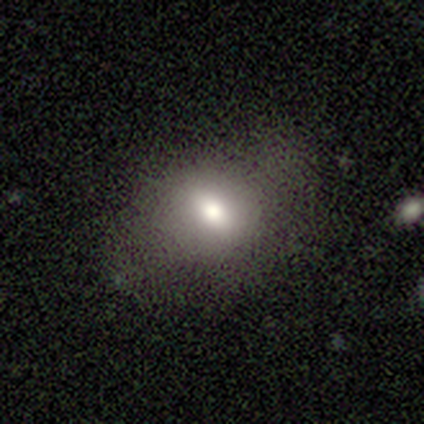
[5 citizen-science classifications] Q: Smooth or featured?
A: smooth (60%); runner-up: featured or disk (20%)
Q: How rounded?
A: in between (67%); runner-up: round (33%)
Q: Merging?
A: none (75%); runner-up: minor disturbance (25%)